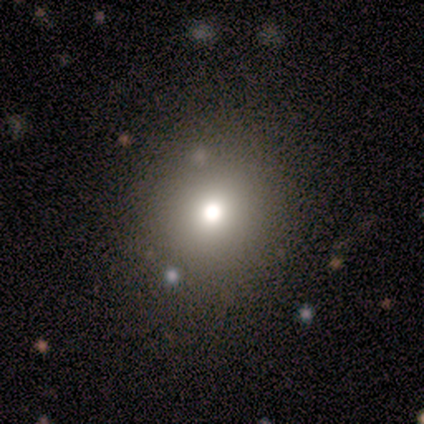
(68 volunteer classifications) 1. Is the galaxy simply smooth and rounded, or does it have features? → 72% smooth, 15% star or artifact, 13% featured or disk.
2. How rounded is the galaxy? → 90% round, 10% in between, 0% cigar-shaped.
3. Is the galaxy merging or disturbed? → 57% none, 9% merger, 2% minor disturbance, 2% major disturbance.